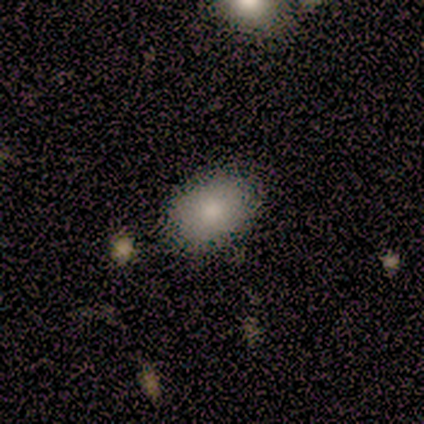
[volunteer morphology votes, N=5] Smooth or featured?
  - smooth: 100% *
  - featured or disk: 0%
  - star or artifact: 0%
How rounded?
  - in between: 100% *
  - round: 0%
  - cigar-shaped: 0%
Merging?
  - none: 80% *
  - minor disturbance: 20%
  - major disturbance: 0%
  - merger: 0%